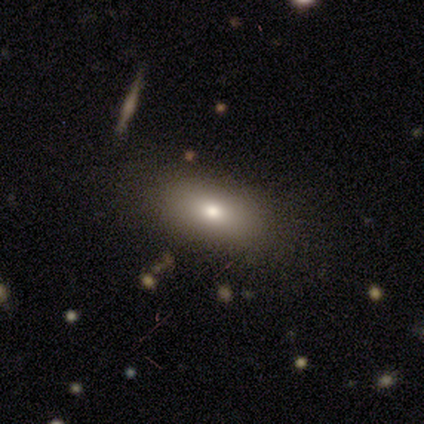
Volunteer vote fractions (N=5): Overall: smooth (100%). How rounded: in between (100%). Merging: none (100%).